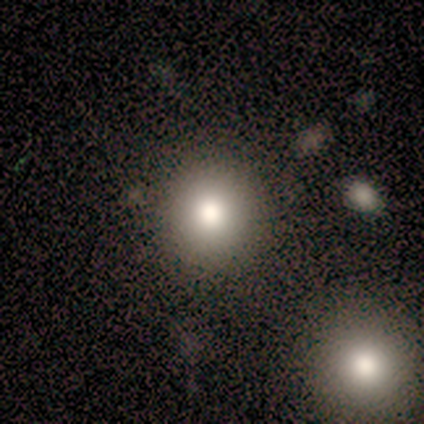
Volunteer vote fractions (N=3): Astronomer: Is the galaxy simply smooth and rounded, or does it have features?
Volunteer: smooth — 67%.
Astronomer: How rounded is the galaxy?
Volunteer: round — 100%.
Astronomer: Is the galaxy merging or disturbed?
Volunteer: none — 100%.